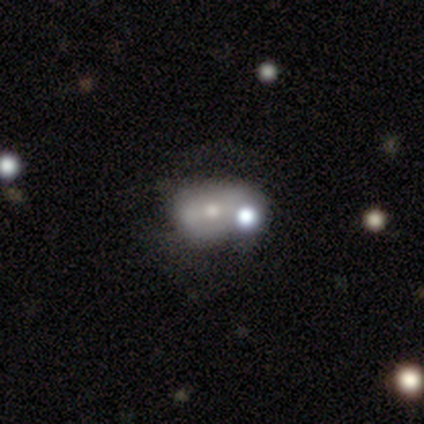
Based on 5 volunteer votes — This is marginally a smooth galaxy (40%, tied with featured or disk). How rounded: possibly round (50%, tied with in between). Merging: marginally none (25%, tied with minor disturbance, major disturbance and merger).